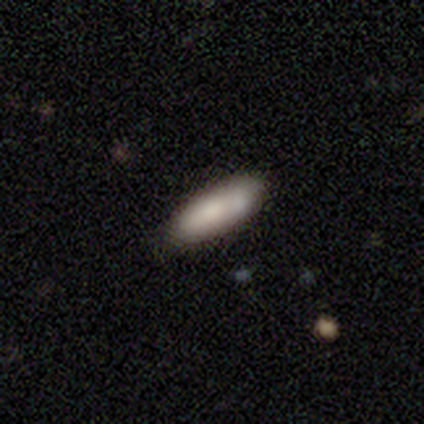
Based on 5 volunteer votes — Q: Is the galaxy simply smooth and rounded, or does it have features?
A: smooth — 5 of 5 (100%).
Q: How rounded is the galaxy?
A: in between — 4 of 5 (80%).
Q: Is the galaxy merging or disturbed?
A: none — 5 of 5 (100%).